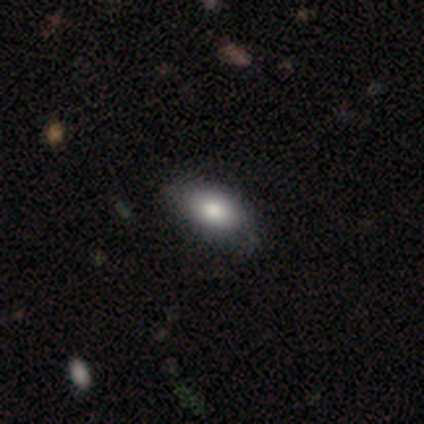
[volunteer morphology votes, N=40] This is clearly a smooth galaxy (82%). How rounded: clearly in between (97%). Merging: likely none (74%).